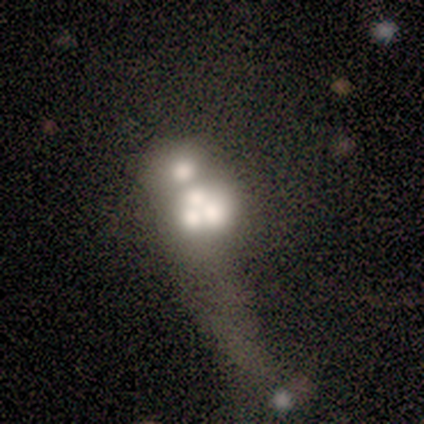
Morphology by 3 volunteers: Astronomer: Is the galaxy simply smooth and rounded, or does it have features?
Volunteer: featured or disk — 67%.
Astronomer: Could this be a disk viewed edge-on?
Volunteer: no — 100%.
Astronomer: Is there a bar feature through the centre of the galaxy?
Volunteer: no — 100%.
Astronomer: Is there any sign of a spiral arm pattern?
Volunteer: no — 100%.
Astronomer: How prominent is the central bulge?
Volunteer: dominant — 50%, tied with none at 50%.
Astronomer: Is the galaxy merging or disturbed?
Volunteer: none — 33%, tied with major disturbance and merger at 33%.